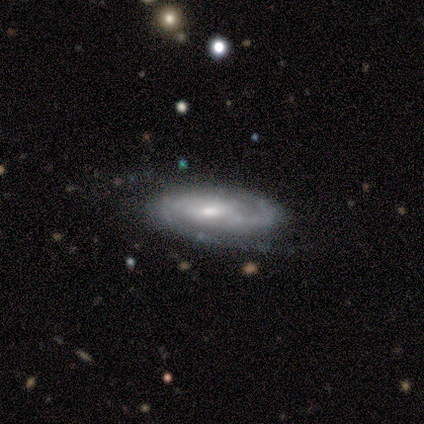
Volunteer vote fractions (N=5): smooth-or-featured: featured or disk: 100% | smooth: 0% | star or artifact: 0%
  disk-edge-on: no: 80% | yes: 20%
    bar: weak: 75% | no: 25% | strong: 0%
    has-spiral-arms: yes: 100% | no: 0%
      spiral-winding: medium: 75% | tight: 25% | loose: 0%
      spiral-arm-count: 2: 50% | 3: 25% | can't tell: 25% | 1: 0% | 4: 0% | more than 4: 0%
    bulge-size: moderate: 75% | small: 25% | dominant: 0% | large: 0% | none: 0%
  merging: none: 80% | minor disturbance: 20% | major disturbance: 0% | merger: 0%